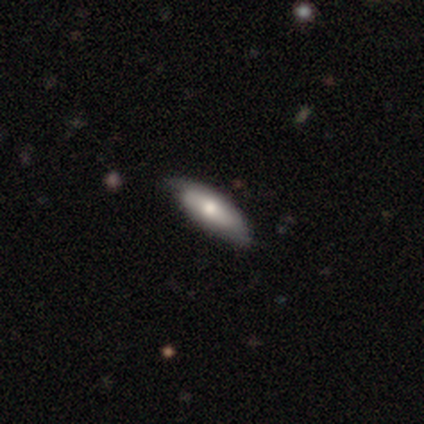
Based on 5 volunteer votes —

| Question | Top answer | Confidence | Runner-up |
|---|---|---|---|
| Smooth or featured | featured or disk | 60% | smooth (40%) |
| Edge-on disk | yes | 67% | no (33%) |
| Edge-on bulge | none | 50% | tied: rounded (50%) |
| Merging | none | 100% | — |